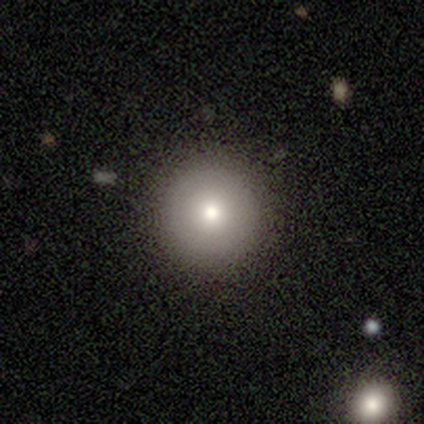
smooth_or_featured: smooth (p=0.74) [alt: star or artifact p=0.15]
how_rounded: round (p=1.00)
merging: none (p=1.00)